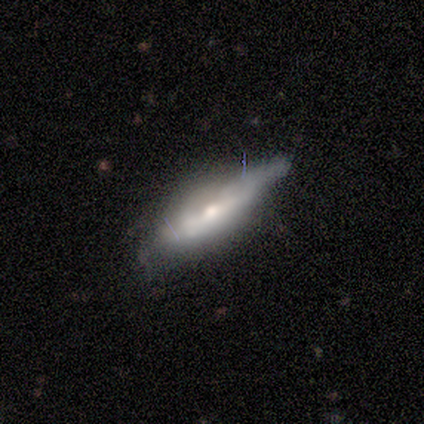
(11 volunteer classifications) smooth_or_featured: featured or disk (p=0.55) [alt: smooth p=0.45]
disk_edge_on: yes (p=0.83) [alt: no p=0.17]
edge_on_bulge: rounded (p=1.00)
merging: none (p=0.64) [alt: minor disturbance p=0.27]